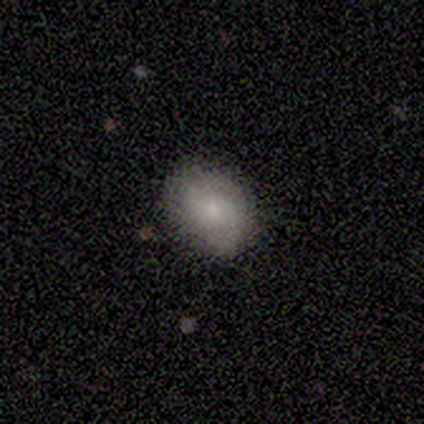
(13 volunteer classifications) Q: Smooth or featured?
A: smooth (77%); runner-up: featured or disk (15%)
Q: How rounded?
A: in between (70%); runner-up: round (30%)
Q: Merging?
A: none (92%); runner-up: minor disturbance (8%)